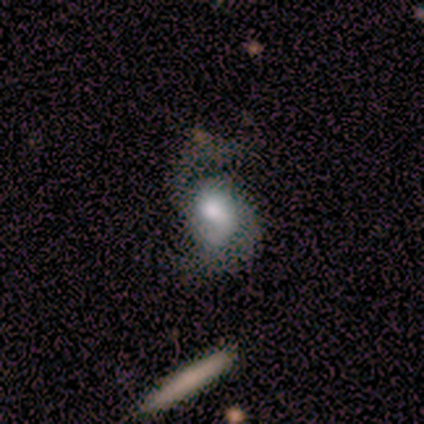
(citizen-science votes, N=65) Smooth or featured? featured or disk (77%)
Edge-on disk? no (98%)
Bar? no (67%)
Spiral arms? yes (96%)
Spiral winding? loose (51%)
Spiral arm count? 2 (89%)
Bulge size? moderate (47%)
Merging? none (48%)